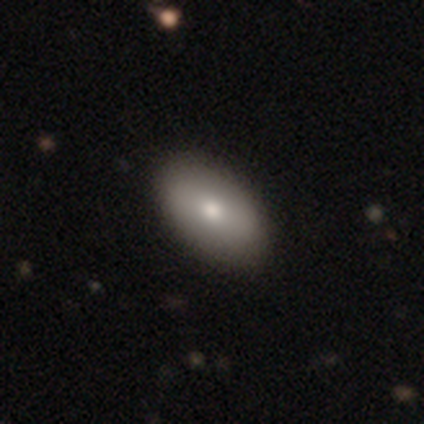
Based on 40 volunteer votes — Overall: smooth (78%). How rounded: in between (97%). Merging: none (64%).